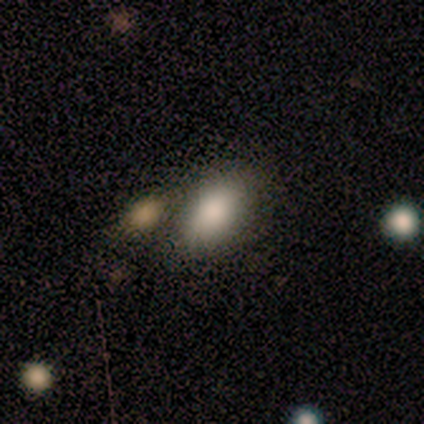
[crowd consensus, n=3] Smooth or featured?
  - smooth: 67% *
  - star or artifact: 33%
  - featured or disk: 0%
How rounded?
  - in between: 100% *
  - round: 0%
  - cigar-shaped: 0%
Merging?
  - minor disturbance: 50% * (tied)
  - merger: 50% * (tied)
  - none: 0%
  - major disturbance: 0%